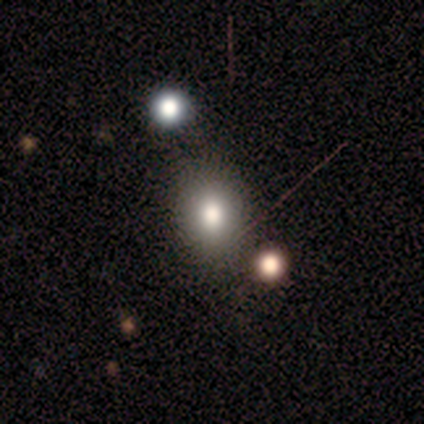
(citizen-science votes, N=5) smooth_or_featured: smooth (p=0.80) [alt: star or artifact p=0.20]
how_rounded: in between (p=0.75) [alt: round p=0.25]
merging: none (p=0.75) [alt: merger p=0.25]